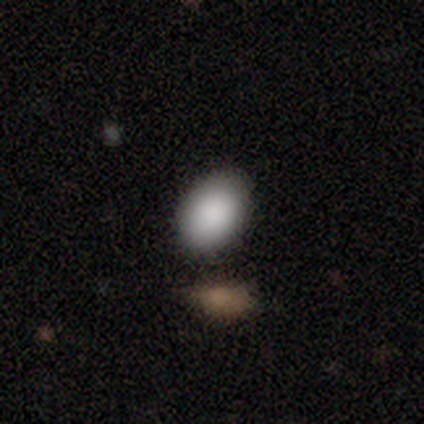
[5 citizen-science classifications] smooth_or_featured: smooth (p=1.00)
how_rounded: in between (p=0.60) [alt: round p=0.40]
merging: none (p=1.00)